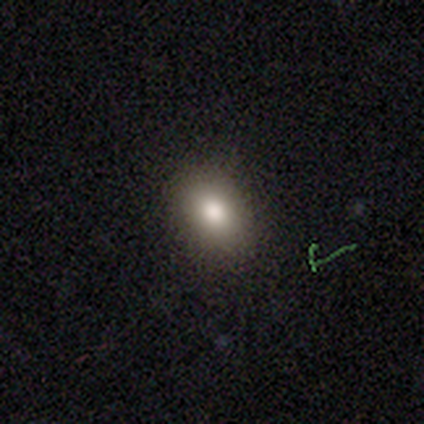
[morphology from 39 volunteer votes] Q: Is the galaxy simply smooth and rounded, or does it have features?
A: smooth — 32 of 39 (82%).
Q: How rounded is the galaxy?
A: in between — 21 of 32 (66%).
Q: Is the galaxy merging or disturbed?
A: none — 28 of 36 (78%).